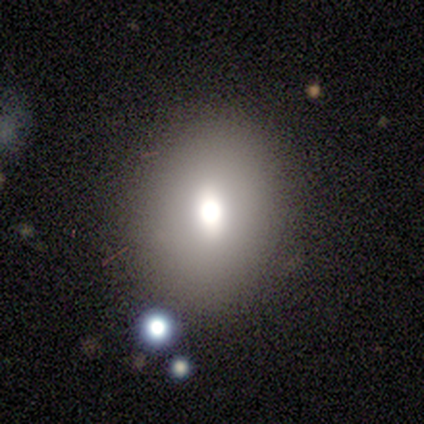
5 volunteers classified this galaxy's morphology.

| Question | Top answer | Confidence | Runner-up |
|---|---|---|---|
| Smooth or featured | smooth | 80% | featured or disk (20%) |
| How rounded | round | 75% | in between (25%) |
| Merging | none | 100% | — |